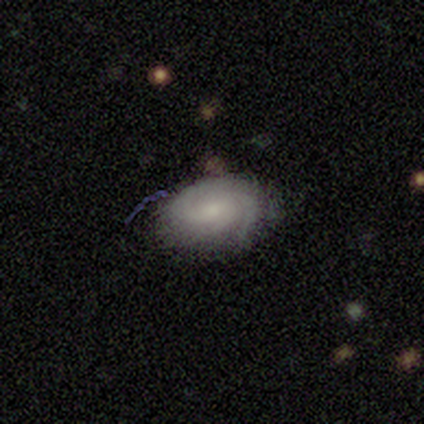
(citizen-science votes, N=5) A featured or disk galaxy (80%) with no bar (75%), tight (100%) spiral arms (100%) and a small central bulge (75%). Merging: none (100%).